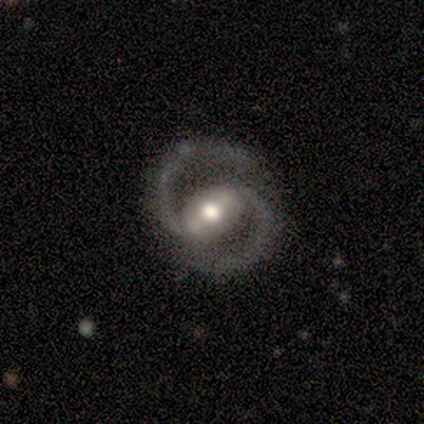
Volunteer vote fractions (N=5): Morphology: type=featured or disk (100%); edge-on=no (100%); bar=strong (80%); spiral arms=yes (100%); winding=tight (60%); arm count=2 (80%); bulge=moderate (80%); merging=none (100%).